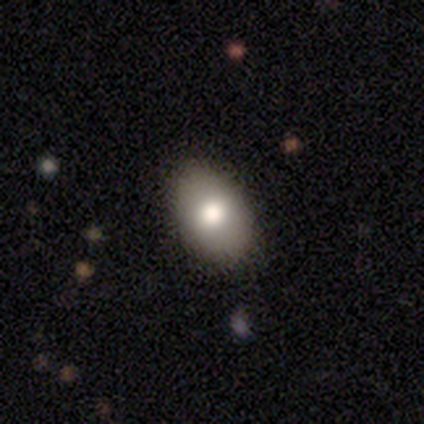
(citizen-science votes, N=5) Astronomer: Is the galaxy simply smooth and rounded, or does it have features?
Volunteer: smooth — 60% (runner-up: star or artifact, 40%).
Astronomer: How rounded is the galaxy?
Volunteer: in between — 100%.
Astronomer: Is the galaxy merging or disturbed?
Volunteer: none — 67%.